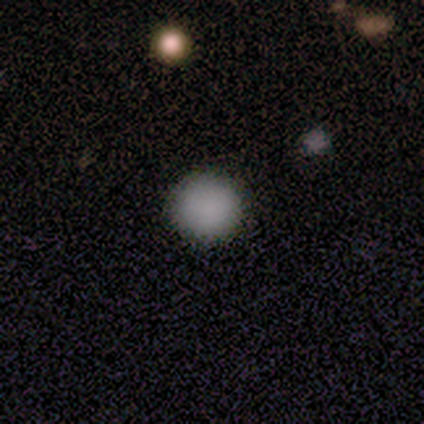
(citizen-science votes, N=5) Overall: smooth (80%). How rounded: round (100%). Merging: none (100%).